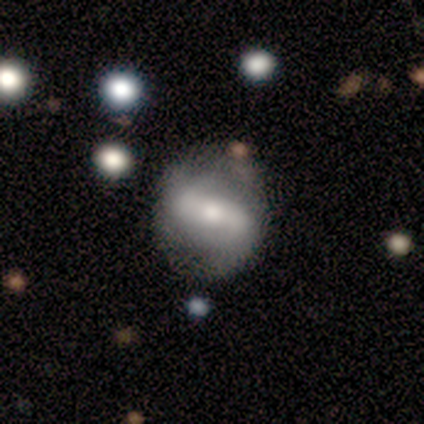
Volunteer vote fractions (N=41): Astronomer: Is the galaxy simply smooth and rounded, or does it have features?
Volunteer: featured or disk — 78%.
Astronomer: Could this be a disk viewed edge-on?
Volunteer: no — 97%.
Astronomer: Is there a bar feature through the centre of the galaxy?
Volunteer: strong — 65%.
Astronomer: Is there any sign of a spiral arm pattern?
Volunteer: yes — 77%.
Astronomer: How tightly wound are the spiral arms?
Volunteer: loose — 50% (runner-up: medium, 46%).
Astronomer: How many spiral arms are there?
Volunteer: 2 — 92%.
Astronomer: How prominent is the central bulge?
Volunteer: moderate — 45% (runner-up: small, 35%).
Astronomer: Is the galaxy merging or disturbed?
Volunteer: none — 73%.